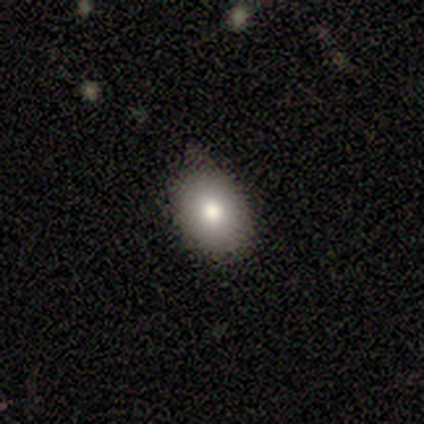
Smooth or featured? 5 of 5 (100%) said smooth. How rounded? 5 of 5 (100%) said in between. Merging? 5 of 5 (100%) said none.